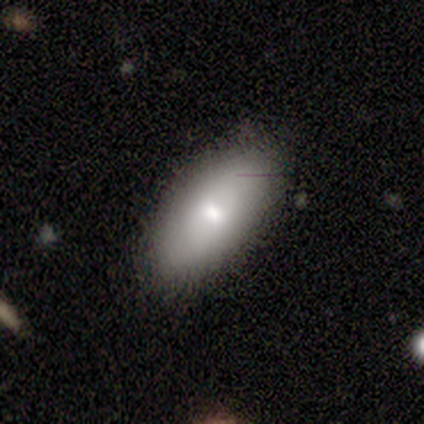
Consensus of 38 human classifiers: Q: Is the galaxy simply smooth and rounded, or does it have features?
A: smooth — 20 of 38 (53%).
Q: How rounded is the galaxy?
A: in between — 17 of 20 (85%).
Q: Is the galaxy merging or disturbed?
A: none — 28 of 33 (85%).